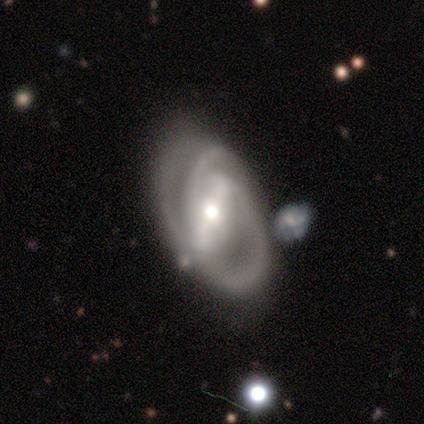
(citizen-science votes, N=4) A featured or disk galaxy (75%) with a strong bar (100%), 3 (100%) tight (50%, tied with medium) spiral arms (67%) and a moderate central bulge (100%).

Vote fractions:
- Smooth or featured? featured or disk: 75% / smooth: 25% / star or artifact: 0%
- Edge-on disk? no: 100% / yes: 0%
- Bar? strong: 100% / weak: 0% / no: 0%
- Spiral arms? yes: 67% / no: 33%
- Spiral winding? tight: 50% (tied) / medium: 50% (tied) / loose: 0%
- Spiral arm count? 3: 100% / 1: 0% / 2: 0% / 4: 0% / more than 4: 0% / can't tell: 0%
- Bulge size? moderate: 100% / dominant: 0% / large: 0% / small: 0% / none: 0%
- Merging? none: 75% / major disturbance: 25% / minor disturbance: 0% / merger: 0%